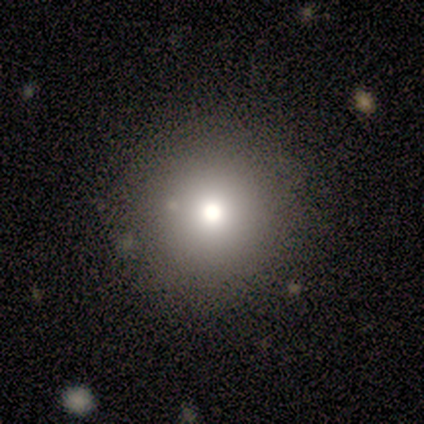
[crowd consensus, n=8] Morphology: type=smooth (88%); roundness=round (100%); merging=none (75%).